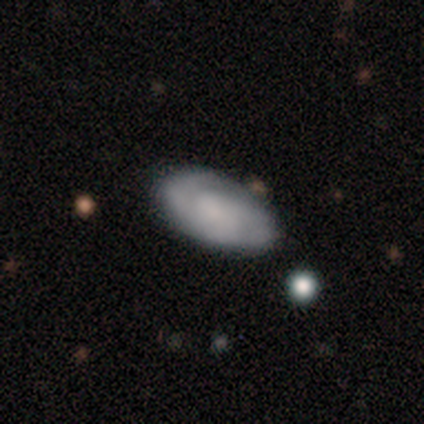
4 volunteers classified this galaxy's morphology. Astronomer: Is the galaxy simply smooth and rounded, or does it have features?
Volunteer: featured or disk — 75%.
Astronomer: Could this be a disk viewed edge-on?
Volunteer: no — 100%.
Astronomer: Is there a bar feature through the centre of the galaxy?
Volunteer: no — 67%.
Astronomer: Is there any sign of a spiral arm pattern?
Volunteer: yes — 100%.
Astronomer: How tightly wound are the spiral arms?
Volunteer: medium — 67%.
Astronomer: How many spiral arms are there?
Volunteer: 3 — 67%.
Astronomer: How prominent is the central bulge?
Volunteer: none — 67%.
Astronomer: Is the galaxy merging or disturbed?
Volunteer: none — 75%.